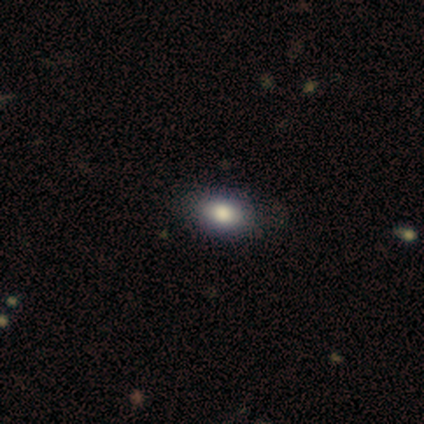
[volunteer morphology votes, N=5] Smooth or featured? 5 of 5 (100%) said smooth. How rounded? 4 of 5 (80%) said in between. Merging? 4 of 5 (80%) said none.